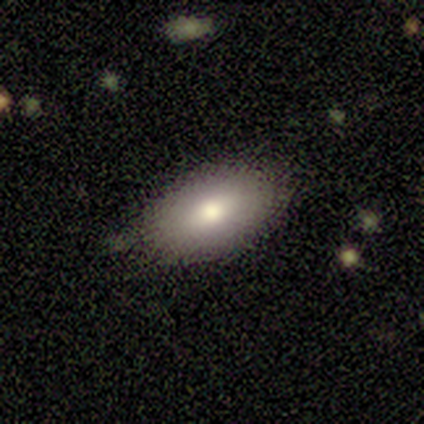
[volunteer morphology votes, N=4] smooth_or_featured: smooth (p=1.00)
how_rounded: in between (p=1.00)
merging: none (p=0.75) [alt: minor disturbance p=0.25]